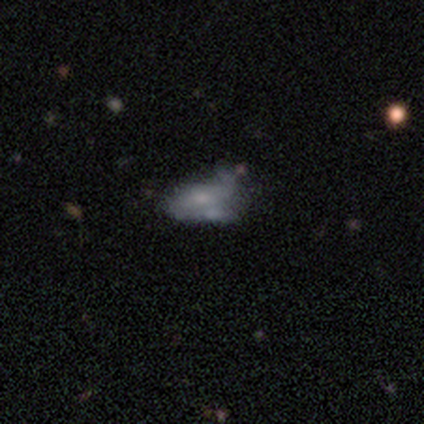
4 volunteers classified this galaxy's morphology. Overall: smooth (50%, tied with featured or disk). How rounded: in between (100%). Merging: none (50%; major disturbance 25%).